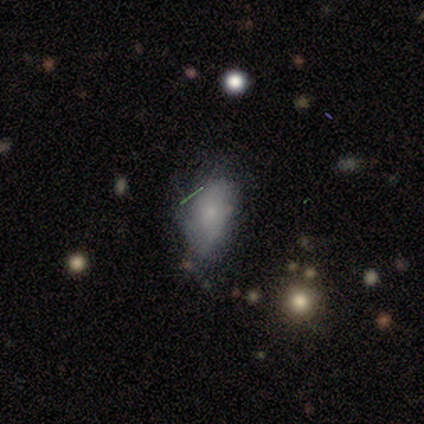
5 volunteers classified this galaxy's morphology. A featured or disk galaxy (80%) with no bar (100%), tight (50%, tied with medium) spiral arms (50%, tied with no) and a small central bulge (100%).

Vote fractions:
- Smooth or featured? featured or disk: 80% / star or artifact: 20% / smooth: 0%
- Edge-on disk? no: 100% / yes: 0%
- Bar? no: 100% / strong: 0% / weak: 0%
- Spiral arms? yes: 50% (tied) / no: 50% (tied)
- Spiral winding? tight: 50% (tied) / medium: 50% (tied) / loose: 0%
- Spiral arm count? can't tell: 100% / 1: 0% / 2: 0% / 3: 0% / 4: 0% / more than 4: 0%
- Bulge size? small: 100% / dominant: 0% / large: 0% / moderate: 0% / none: 0%
- Merging? none: 50% (tied) / minor disturbance: 50% (tied) / major disturbance: 0% / merger: 0%